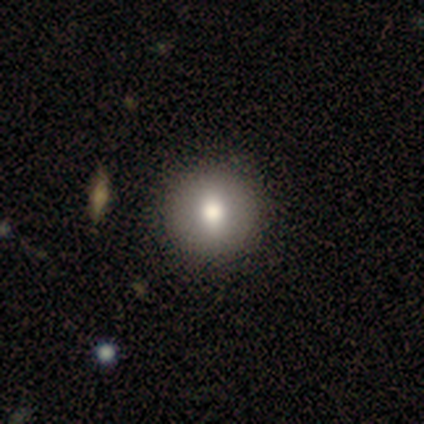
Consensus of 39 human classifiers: smooth 82%, featured or disk 10%, star or artifact 8%. Down the decision tree: how rounded — round (91%); merging — none (75%).